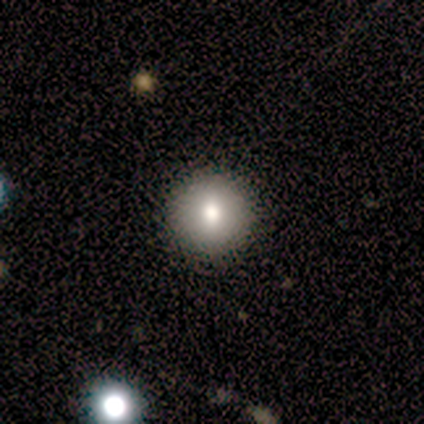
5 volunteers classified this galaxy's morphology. Volunteers were most divided on "smooth or featured": smooth: 80%, star or artifact: 20%, featured or disk: 0%. More confident: how rounded — round (100%); merging — none (100%).